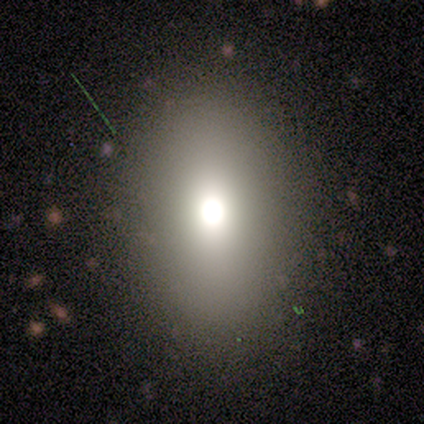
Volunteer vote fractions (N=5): Overall: smooth (80%). How rounded: in between (75%). Merging: none (80%).